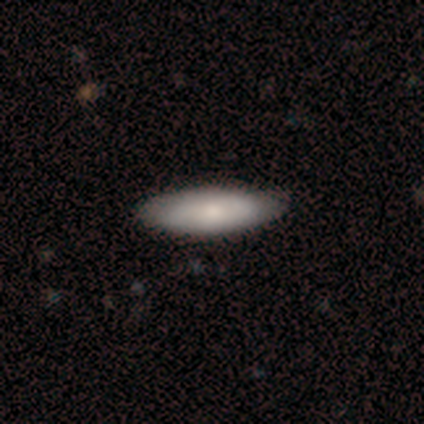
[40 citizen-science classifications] Overall: smooth (75%). How rounded: in between (60%; cigar-shaped 40%). Merging: none (66%).